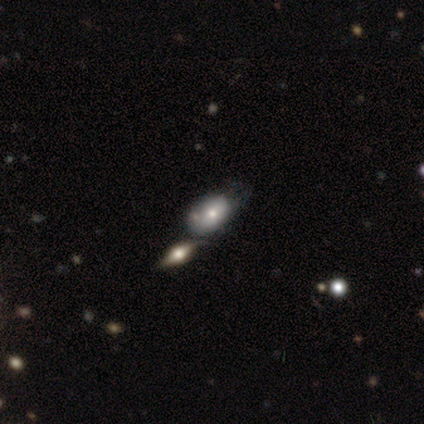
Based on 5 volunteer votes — Volunteers were most divided on "merging" (2-way tie): none: 50%, merger: 50%, minor disturbance: 0%, major disturbance: 0%. More confident: how rounded — in between (100%); smooth or featured — smooth (80%).